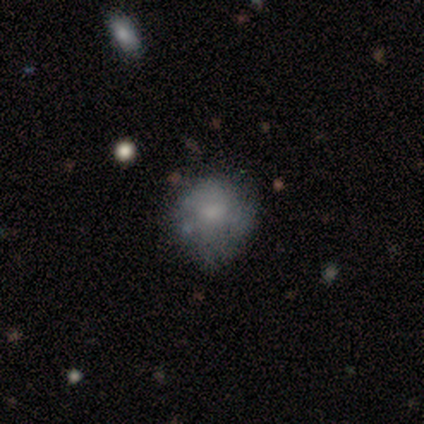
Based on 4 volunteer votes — Smooth or featured? 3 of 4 (75%) said featured or disk. Edge-on disk? 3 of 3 (100%) said no. Bar? 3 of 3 (100%) said no. Spiral arms? 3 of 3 (100%) said no. Bulge size? 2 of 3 (67%) said small. Merging? 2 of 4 (50%, tied with minor disturbance) said none.